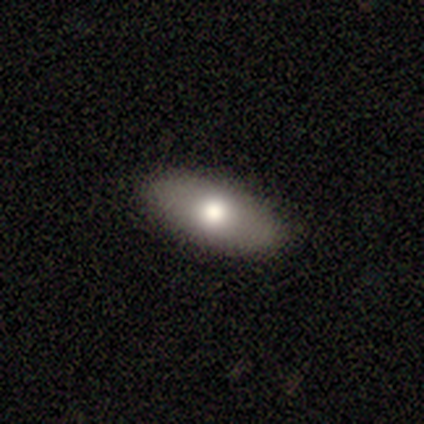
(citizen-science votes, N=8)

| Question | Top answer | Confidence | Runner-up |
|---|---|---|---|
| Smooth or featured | smooth | 88% | featured or disk (12%) |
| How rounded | in between | 86% | cigar-shaped (14%) |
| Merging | none | 75% | minor disturbance (25%) |